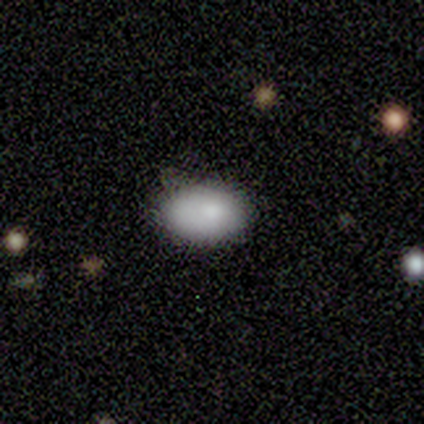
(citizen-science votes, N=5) This is clearly a smooth galaxy (80%). How rounded: clearly in between (100%). Merging: likely none (60%).